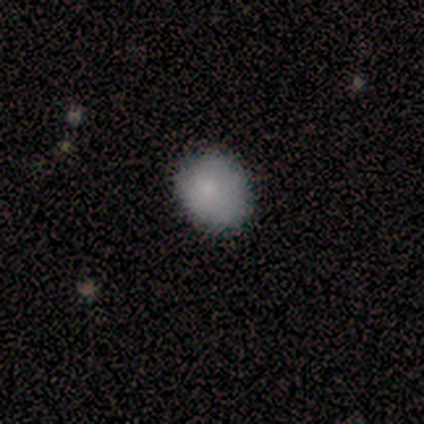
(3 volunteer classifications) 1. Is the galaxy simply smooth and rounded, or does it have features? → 100% smooth, 0% featured or disk, 0% star or artifact.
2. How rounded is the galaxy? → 100% round, 0% in between, 0% cigar-shaped.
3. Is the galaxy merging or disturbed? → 100% none, 0% minor disturbance, 0% major disturbance, 0% merger.